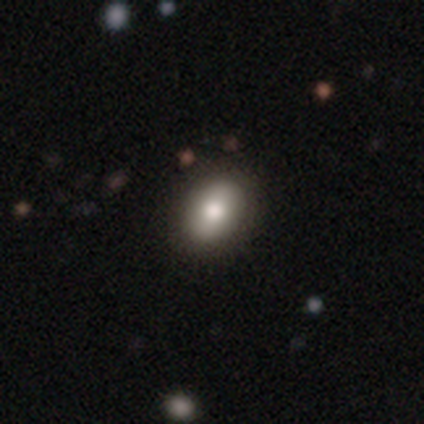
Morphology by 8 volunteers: type=smooth (88%); roundness=in between (71%); merging=none (100%).